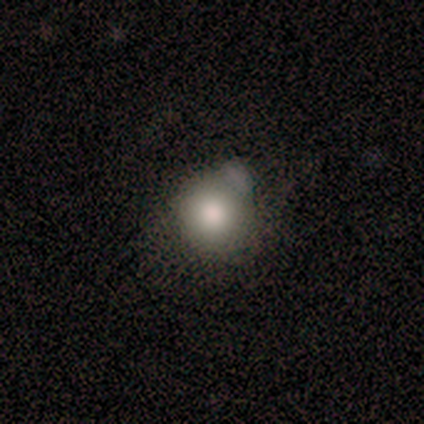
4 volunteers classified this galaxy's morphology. Smooth or featured? smooth (100%)
How rounded? round (100%)
Merging? none (75%)